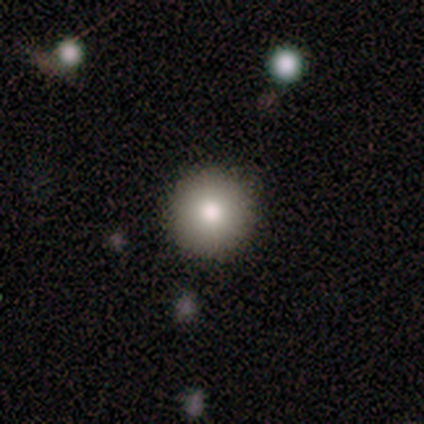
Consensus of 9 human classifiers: This appears to be a smooth galaxy with no disk features (44%, tied with featured or disk) that is round (100%). Merging: none (100%).